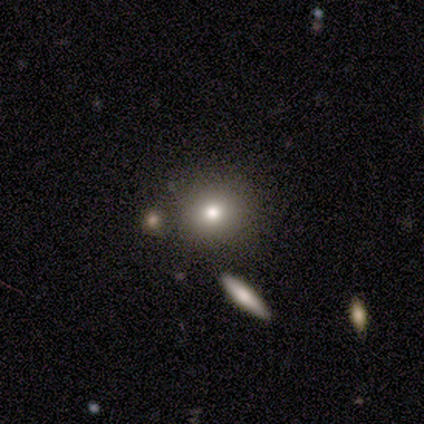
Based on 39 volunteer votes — This appears to be a smooth galaxy with no disk features (72%) that is round (82%). Merging: none (88%).